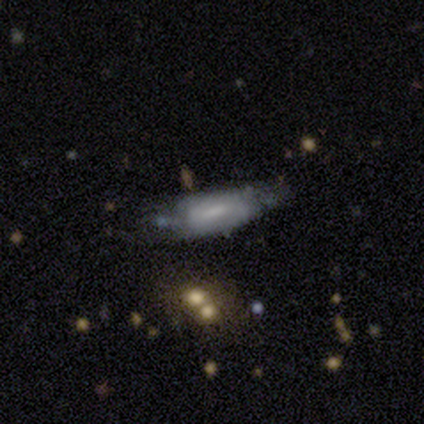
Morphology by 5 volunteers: This is likely a featured or disk galaxy (60%). It is clearly not viewed edge-on (100%). Bar: likely weak (67%). Spiral arm pattern: likely no (67%). Central bulge: likely none (67%). Merging: marginally none (40%, tied with minor disturbance).